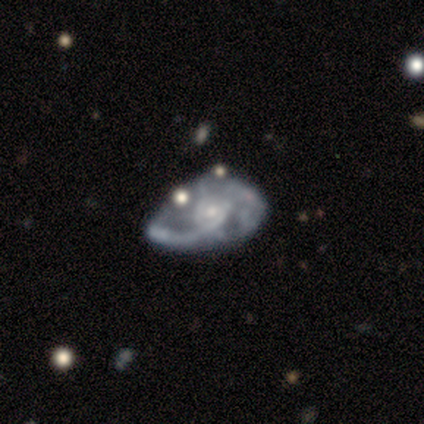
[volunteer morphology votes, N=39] Smooth or featured: featured or disk — 77% (star or artifact — 15%)
Edge-on disk: no — 100%
Bar: no — 77% (weak — 20%)
Spiral arms: yes — 87% (no — 13%)
Spiral winding: loose — 73% (medium — 23%)
Spiral arm count: can't tell — 38% (2 — 31%)
Bulge size: small — 60% (moderate — 30%)
Merging: none — 36% (major disturbance — 30%)